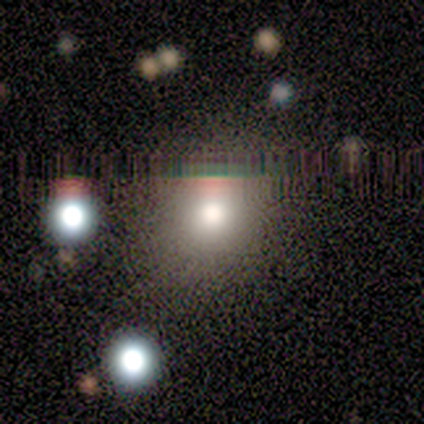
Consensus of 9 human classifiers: A smooth galaxy with no disk features (67%) that is round (50%, tied with in between). Merging: none (100%).